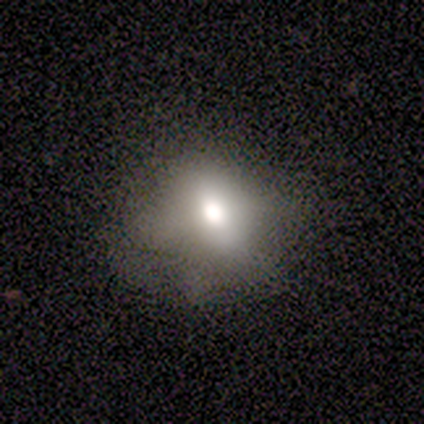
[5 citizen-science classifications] This is marginally a smooth galaxy (40%, tied with featured or disk). How rounded: possibly round (50%, tied with in between). Merging: possibly none (50%, tied with minor disturbance).